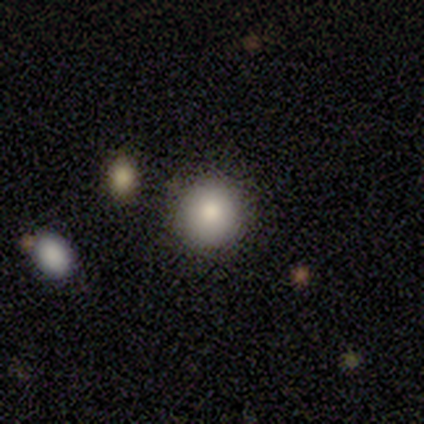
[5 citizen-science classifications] A smooth galaxy with no disk features (100%) that is round (100%). Merging: none (100%).